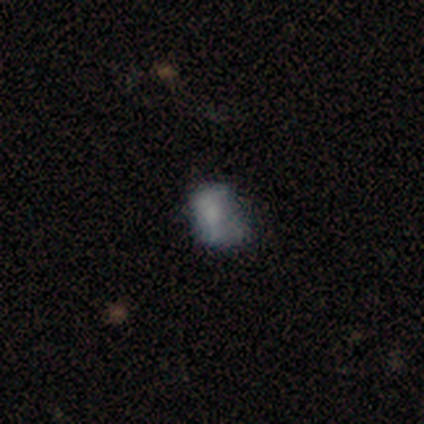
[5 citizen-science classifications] Q: Smooth or featured?
A: smooth (40%); tied with: featured or disk (40%)
Q: How rounded?
A: in between (100%)
Q: Merging?
A: major disturbance (50%); runner-up: none (25%)